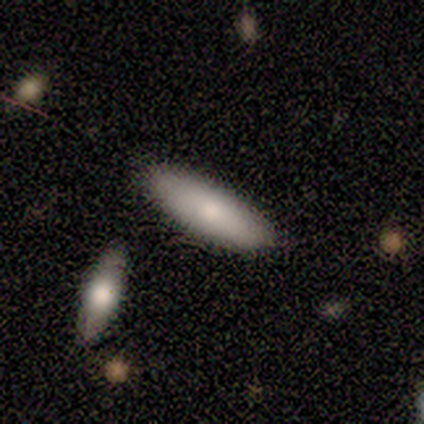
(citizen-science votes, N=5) smooth-or-featured: smooth: 100% | featured or disk: 0% | star or artifact: 0%
  how-rounded: cigar-shaped: 100% | round: 0% | in between: 0%
  merging: none: 100% | minor disturbance: 0% | major disturbance: 0% | merger: 0%